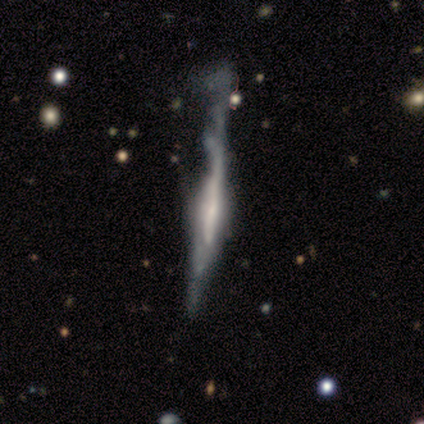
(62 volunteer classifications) Overall: featured or disk (82%). Edge-on disk: yes (92%). Edge-on bulge: rounded (53%; none 28%). Merging: major disturbance (42%; minor disturbance 28%).